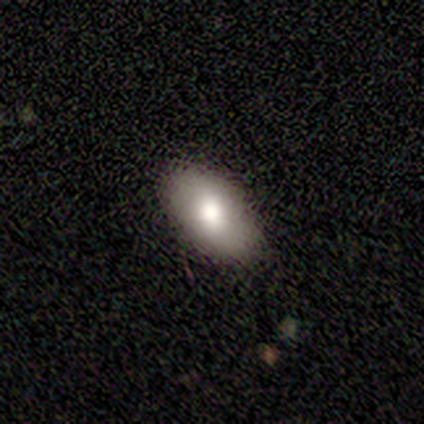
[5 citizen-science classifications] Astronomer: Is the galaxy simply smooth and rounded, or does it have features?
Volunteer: smooth — 80%.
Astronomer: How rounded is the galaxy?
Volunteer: in between — 100%.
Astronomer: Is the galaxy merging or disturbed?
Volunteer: none — 100%.